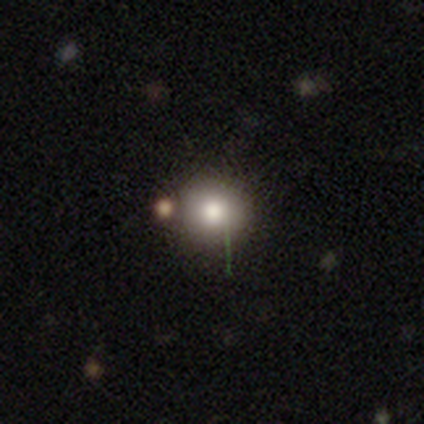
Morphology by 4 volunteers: Consensus on every question: smooth or featured — smooth (100%); how rounded — round (100%); merging — none (100%).